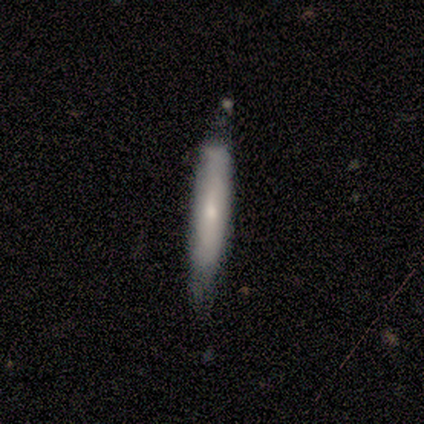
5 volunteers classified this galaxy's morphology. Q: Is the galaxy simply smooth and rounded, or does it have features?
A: smooth — 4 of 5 (80%).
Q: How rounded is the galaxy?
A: cigar-shaped — 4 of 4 (100%).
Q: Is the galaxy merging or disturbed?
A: none — 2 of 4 (50%, tied with minor disturbance).